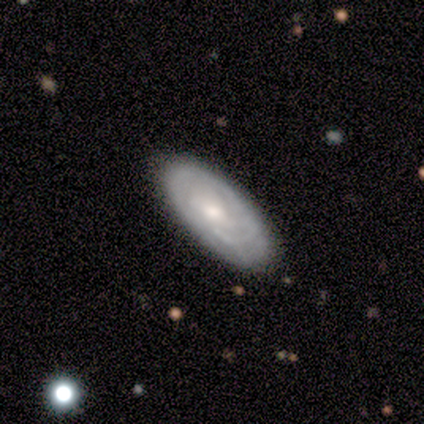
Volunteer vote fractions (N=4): This is clearly a featured or disk galaxy (100%). It is clearly not viewed edge-on (100%). Bar: clearly no (100%). Spiral arm pattern: clearly yes (100%). Spiral arm count: likely can't tell (75%). Spiral winding: clearly tight (100%). Central bulge: possibly small (50%). Merging: clearly none (100%).